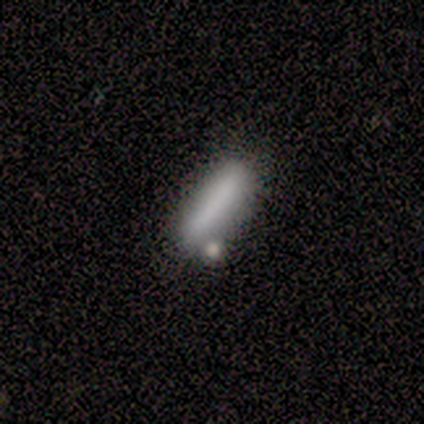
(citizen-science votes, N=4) Q: Smooth or featured?
A: smooth (75%); runner-up: star or artifact (25%)
Q: How rounded?
A: cigar-shaped (100%)
Q: Merging?
A: none (67%); runner-up: merger (33%)